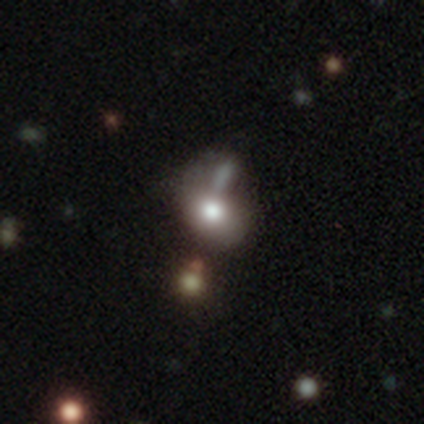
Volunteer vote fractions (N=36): This appears to be a smooth galaxy with no disk features (53%) that is in between round and cigar-shaped (53%). Merging: minor disturbance (39%).